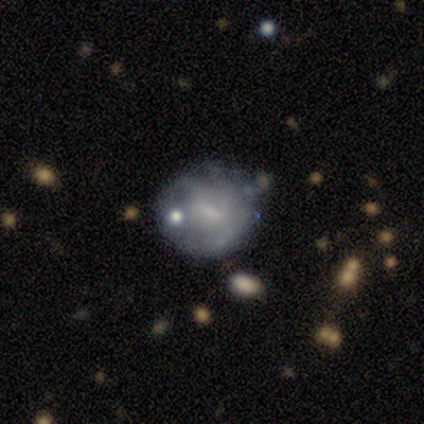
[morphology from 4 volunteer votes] This is likely a featured or disk galaxy (75%). It is clearly not viewed edge-on (100%). Bar: likely weak (67%). Spiral arm pattern: likely yes (67%). Spiral arm count: possibly 4 (50%, tied with can't tell). Spiral winding: clearly medium (100%). Central bulge: marginally moderate (33%, tied with small and none). Merging: likely minor disturbance (75%).